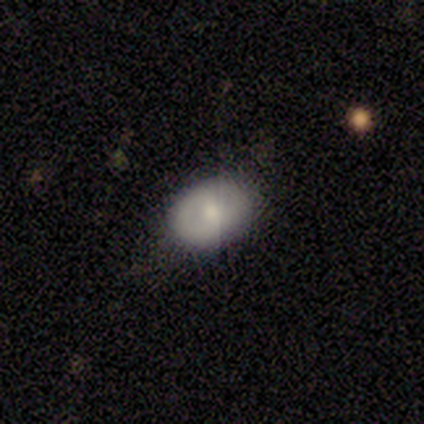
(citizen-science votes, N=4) Smooth or featured: smooth — 75% (featured or disk — 25%)
How rounded: in between — 100%
Merging: none — 100%